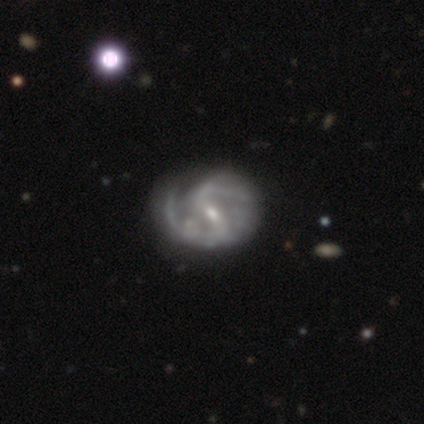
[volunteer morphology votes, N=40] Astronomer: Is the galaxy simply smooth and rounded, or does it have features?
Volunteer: featured or disk — 98%.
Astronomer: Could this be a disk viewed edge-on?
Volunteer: no — 100%.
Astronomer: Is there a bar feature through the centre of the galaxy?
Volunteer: weak — 59% (runner-up: strong, 38%).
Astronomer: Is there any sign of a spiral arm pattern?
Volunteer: yes — 95%.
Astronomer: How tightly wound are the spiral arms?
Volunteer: medium — 62%.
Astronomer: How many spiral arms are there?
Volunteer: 2 — 78%.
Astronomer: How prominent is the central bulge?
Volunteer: small — 62%.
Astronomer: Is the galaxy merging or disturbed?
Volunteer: none — 44% (runner-up: minor disturbance, 23%).